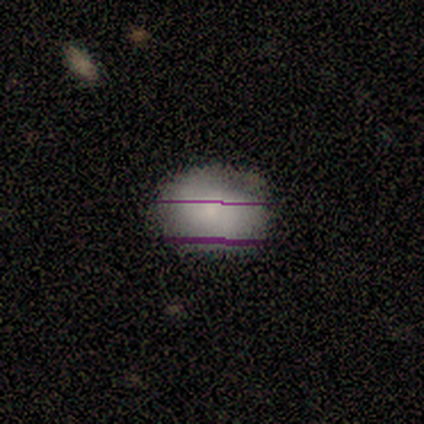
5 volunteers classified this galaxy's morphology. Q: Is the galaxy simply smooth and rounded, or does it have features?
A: smooth — 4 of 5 (80%).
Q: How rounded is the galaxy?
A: round — 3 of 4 (75%).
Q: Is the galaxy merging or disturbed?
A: none — 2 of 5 (40%, tied with major disturbance).